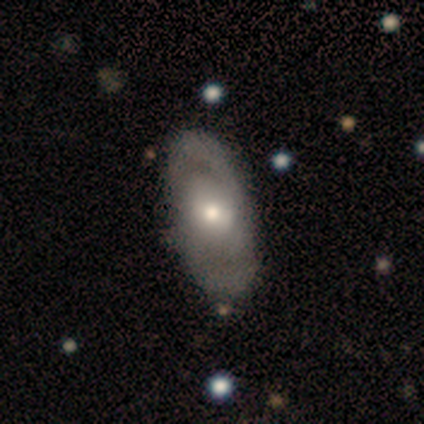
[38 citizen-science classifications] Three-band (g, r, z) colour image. It shows a featured or disk galaxy (63%) with no bar (58%), 2 (85%) medium (54%) spiral arms (54%) and a moderate central bulge (67%). Merging: none (77%).